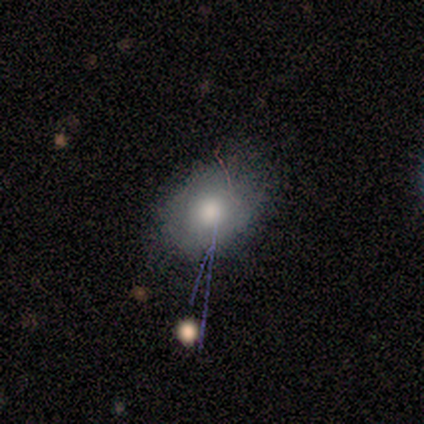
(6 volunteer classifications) Smooth or featured?
  - smooth: 67% *
  - featured or disk: 17%
  - star or artifact: 17%
How rounded?
  - round: 75% *
  - in between: 25%
  - cigar-shaped: 0%
Merging?
  - none: 80% *
  - minor disturbance: 20%
  - major disturbance: 0%
  - merger: 0%